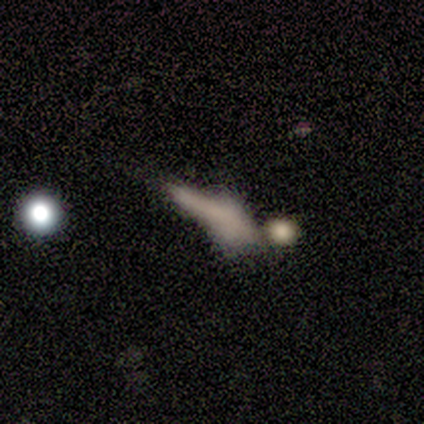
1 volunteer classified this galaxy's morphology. smooth-or-featured: featured or disk: 100% | smooth: 0% | star or artifact: 0%
  disk-edge-on: yes: 100% | no: 0%
    edge-on-bulge: rounded: 100% | boxy: 0% | none: 0%
  merging: minor disturbance: 100% | none: 0% | major disturbance: 0% | merger: 0%